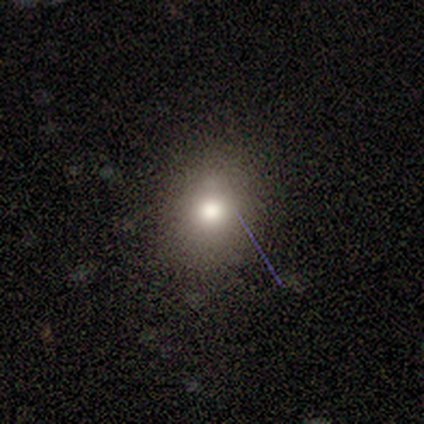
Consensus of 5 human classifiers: Q: Smooth or featured?
A: smooth (100%)
Q: How rounded?
A: round (60%); runner-up: in between (40%)
Q: Merging?
A: none (60%); runner-up: minor disturbance (20%)